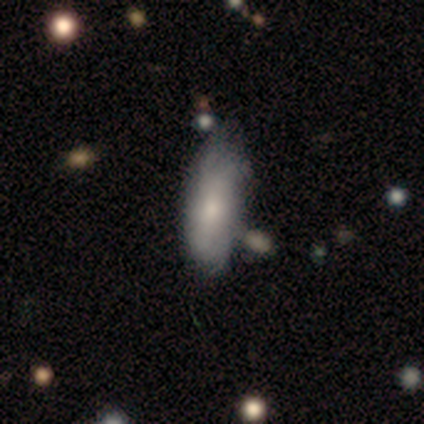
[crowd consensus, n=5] A smooth galaxy with no disk features (80%) that is in between round and cigar-shaped (100%).

Vote fractions:
- Smooth or featured? smooth: 80% / featured or disk: 20% / star or artifact: 0%
- How rounded? in between: 100% / round: 0% / cigar-shaped: 0%
- Merging? none: 60% / minor disturbance: 40% / major disturbance: 0% / merger: 0%